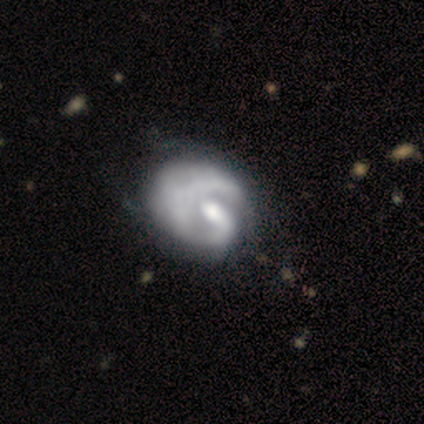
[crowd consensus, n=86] A featured or disk galaxy (72%) with no bar (69%), 1 (77%) tight (61%) spiral arms (72%) and a moderate central bulge (62%). Merging: major disturbance (41%).